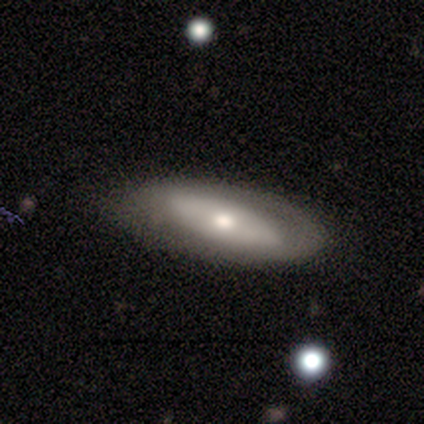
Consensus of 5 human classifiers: This appears to be a featured or disk galaxy (100%) with no bar (60%), no spiral arms (80%) and a moderate central bulge (60%). Merging: none (40%, tied with minor disturbance).